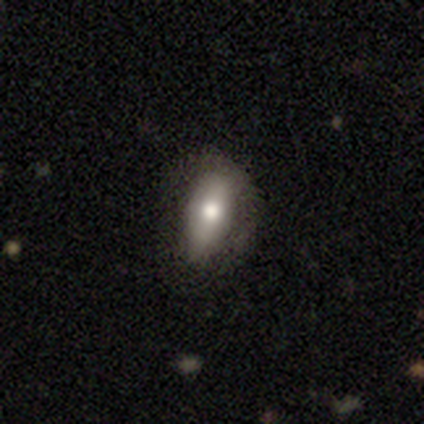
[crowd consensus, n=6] smooth-or-featured: smooth: 67% | featured or disk: 33% | star or artifact: 0%
  how-rounded: in between: 100% | round: 0% | cigar-shaped: 0%
  merging: minor disturbance: 50% | none: 33% | major disturbance: 17% | merger: 0%